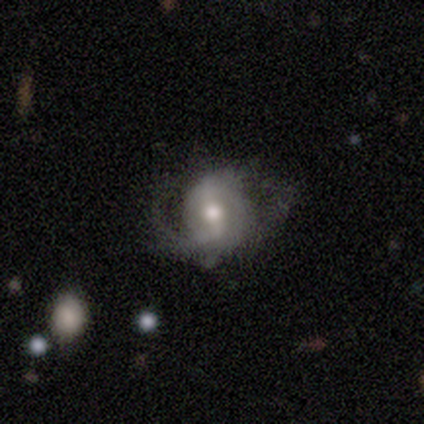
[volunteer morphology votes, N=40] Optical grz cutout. It shows a featured or disk galaxy (80%) with a strong bar (50%), 2 (57%) medium (54%) spiral arms (93%) and a moderate central bulge (80%). Merging: none (34%).